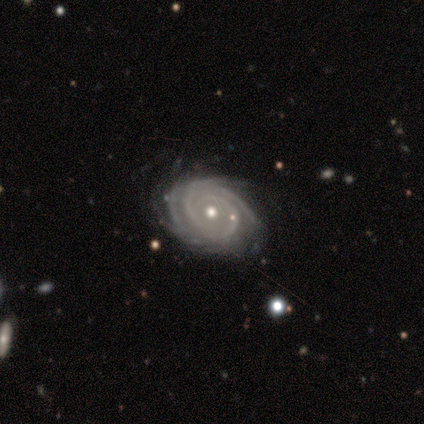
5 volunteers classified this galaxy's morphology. Smooth or featured? featured or disk (100%)
Edge-on disk? no (100%)
Bar? no (60%)
Spiral arms? yes (100%)
Spiral winding? tight (100%)
Spiral arm count? 4 (40%, tied with can't tell)
Bulge size? moderate (60%)
Merging? none (80%)